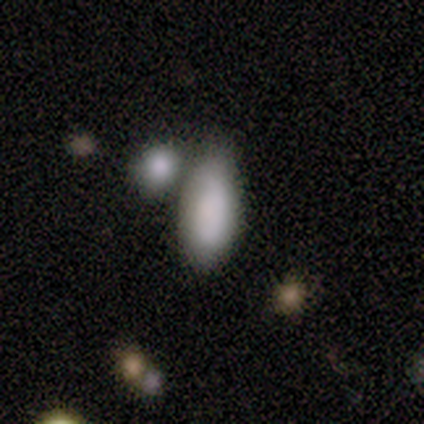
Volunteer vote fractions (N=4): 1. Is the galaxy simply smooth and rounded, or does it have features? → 75% smooth, 25% featured or disk, 0% star or artifact.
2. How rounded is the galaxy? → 100% in between, 0% round, 0% cigar-shaped.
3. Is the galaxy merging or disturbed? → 50% none, 25% minor disturbance, 25% merger, 0% major disturbance.